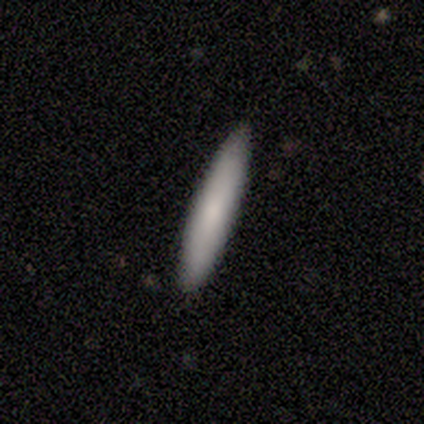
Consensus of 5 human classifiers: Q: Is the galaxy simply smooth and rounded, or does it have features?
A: smooth — 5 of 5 (100%).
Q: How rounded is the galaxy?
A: cigar-shaped — 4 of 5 (80%).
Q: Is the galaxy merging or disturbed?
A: none — 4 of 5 (80%).